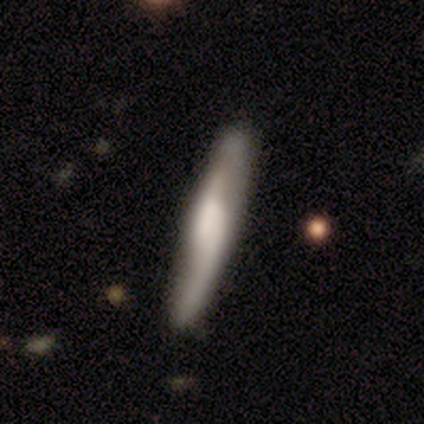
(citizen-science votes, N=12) Morphology: type=featured or disk (83%); edge-on=yes (50%, tied with no); edge-on bulge=rounded (60%); merging=none (83%).